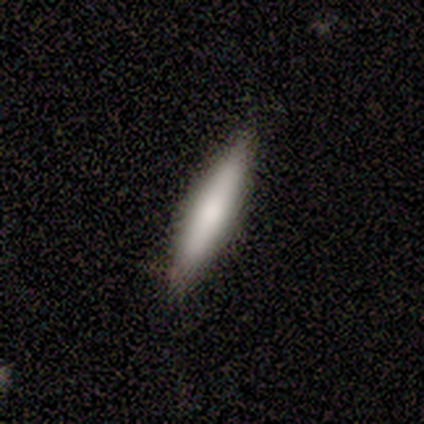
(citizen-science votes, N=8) Overall: smooth (62%; featured or disk 25%). How rounded: cigar-shaped (80%). Merging: none (86%).